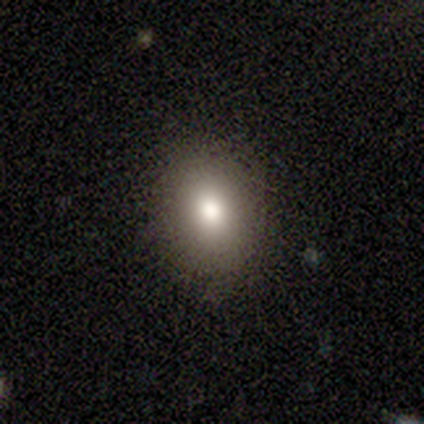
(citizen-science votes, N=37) Morphology: type=smooth (92%); roundness=in between (56%); merging=none (97%).